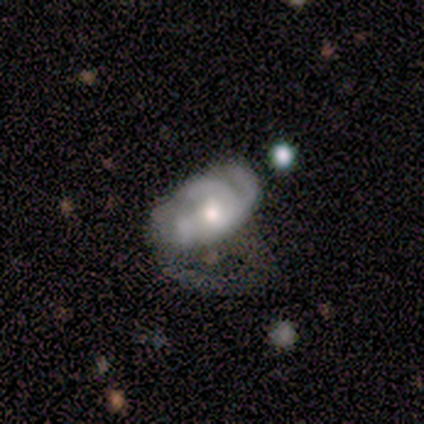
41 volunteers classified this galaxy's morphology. Q: Smooth or featured?
A: featured or disk (78%); runner-up: smooth (15%)
Q: Edge-on disk?
A: no (97%); runner-up: yes (3%)
Q: Bar?
A: no (84%); runner-up: weak (13%)
Q: Spiral arms?
A: yes (94%); runner-up: no (6%)
Q: Spiral winding?
A: tight (41%); runner-up: medium (38%)
Q: Spiral arm count?
A: 3 (45%); runner-up: 2 (24%)
Q: Bulge size?
A: moderate (52%); runner-up: large (26%)
Q: Merging?
A: major disturbance (47%); runner-up: none (21%)